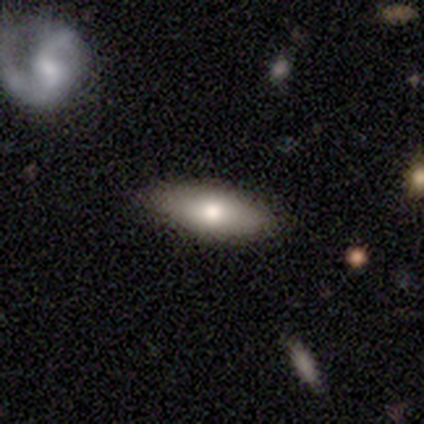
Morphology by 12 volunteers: smooth_or_featured: smooth (p=0.92) [alt: featured or disk p=0.08]
how_rounded: in between (p=0.64) [alt: cigar-shaped p=0.36]
merging: none (p=0.83) [alt: minor disturbance p=0.08]